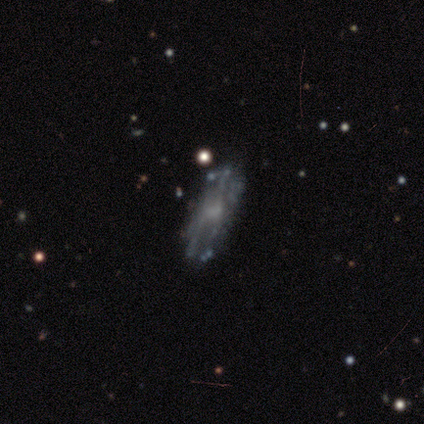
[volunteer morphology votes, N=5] featured or disk 100%, smooth 0%, star or artifact 0%. Down the decision tree: edge-on disk — no (100%); bar — no (60%); spiral arms — no (80%); bulge size — small (60%); merging — none (80%).